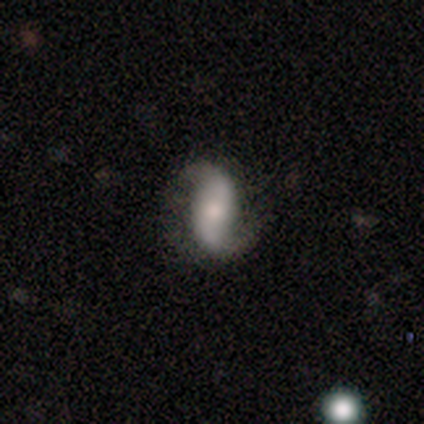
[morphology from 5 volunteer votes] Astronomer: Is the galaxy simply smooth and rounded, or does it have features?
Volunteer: featured or disk — 100%.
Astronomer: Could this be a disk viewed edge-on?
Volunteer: no — 100%.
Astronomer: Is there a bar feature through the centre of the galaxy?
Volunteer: no — 60% (runner-up: weak, 40%).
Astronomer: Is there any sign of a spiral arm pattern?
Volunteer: yes — 100%.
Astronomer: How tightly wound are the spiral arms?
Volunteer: loose — 80%.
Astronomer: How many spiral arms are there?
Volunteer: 2 — 100%.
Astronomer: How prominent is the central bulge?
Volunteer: moderate — 40%, tied with small at 40%.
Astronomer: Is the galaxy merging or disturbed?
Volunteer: none — 100%.